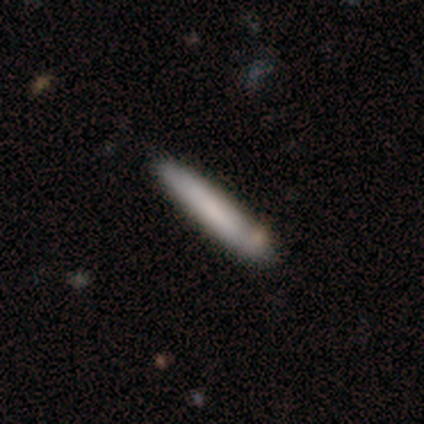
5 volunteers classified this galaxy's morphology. smooth-or-featured: smooth: 80% | featured or disk: 20% | star or artifact: 0%
  how-rounded: cigar-shaped: 100% | round: 0% | in between: 0%
  merging: none: 80% | minor disturbance: 20% | major disturbance: 0% | merger: 0%